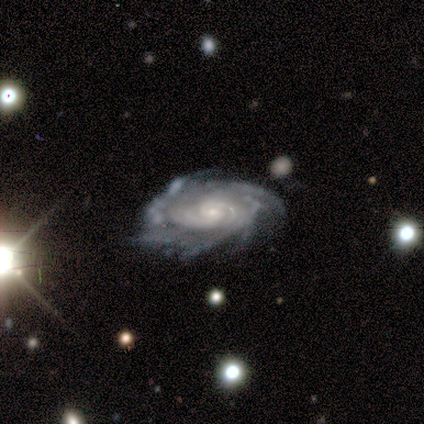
Volunteers were most divided on "spiral arm count": more than 4: 40%, 2: 20%, 3: 20%, can't tell: 20%, 1: 0%, 4: 0%. More confident: smooth or featured — featured or disk (100%); edge-on disk — no (100%); spiral arms — yes (100%); spiral winding — tight (100%); bar — no (80%); bulge size — small (80%); merging — none (80%).